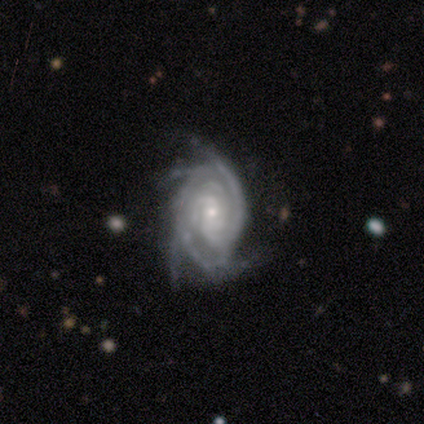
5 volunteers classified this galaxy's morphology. This appears to be a featured or disk galaxy (100%) with no bar (60%), 3 (40%) tight (80%) spiral arms (100%) and a small central bulge (100%). Merging: none (60%).